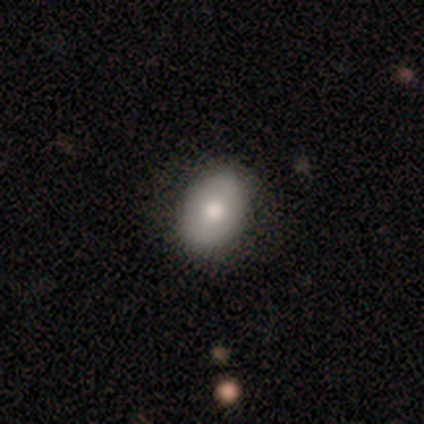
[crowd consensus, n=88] This appears to be a smooth galaxy with no disk features (75%) that is in between round and cigar-shaped (77%). Merging: none (78%).